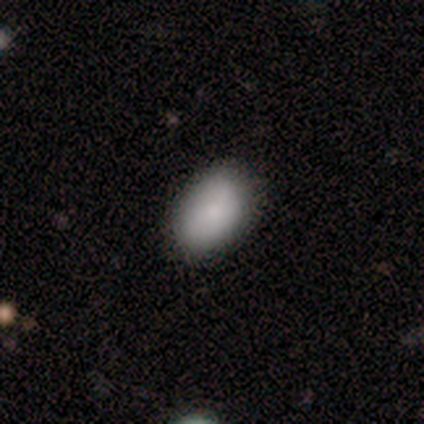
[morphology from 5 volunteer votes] smooth_or_featured: smooth (p=1.00)
how_rounded: in between (p=1.00)
merging: none (p=1.00)